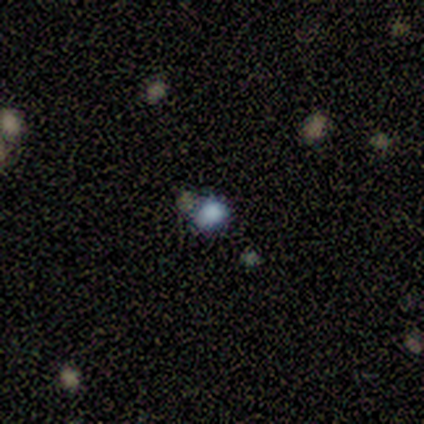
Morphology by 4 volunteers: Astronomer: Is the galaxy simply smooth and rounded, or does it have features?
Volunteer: star or artifact — 75%.